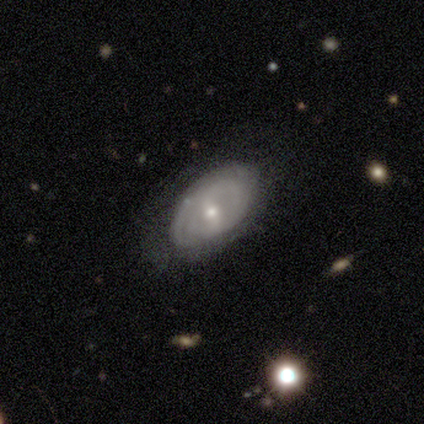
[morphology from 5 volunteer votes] Volunteers were most divided on "spiral arms" (2-way tie): yes: 50%, no: 50%; "spiral winding" (2-way tie): tight: 50%, medium: 50%, loose: 0%; "spiral arm count" (2-way tie): 2: 50%, can't tell: 50%, 1: 0%, 3: 0%, 4: 0%, more than 4: 0%. More confident: edge-on disk — no (100%); smooth or featured — featured or disk (80%); bar — weak (75%); bulge size — small (75%); merging — none (60%).